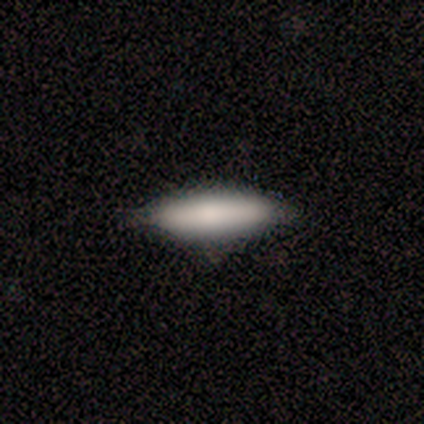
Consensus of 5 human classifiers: This appears to be a smooth galaxy with no disk features (80%) that is cigar-shaped (75%). Merging: none (75%).